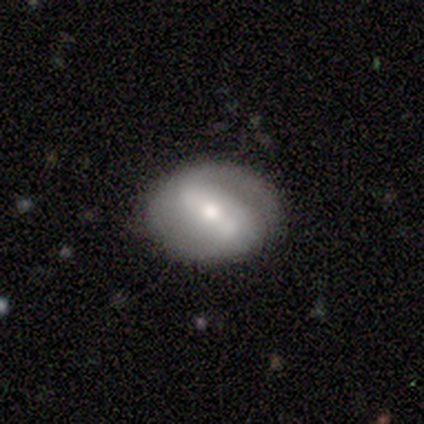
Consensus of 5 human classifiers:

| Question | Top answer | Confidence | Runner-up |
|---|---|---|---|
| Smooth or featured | featured or disk | 100% | — |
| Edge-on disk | no | 100% | — |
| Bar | weak | 60% | strong (40%) |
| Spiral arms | no | 60% | yes (40%) |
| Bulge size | moderate | 60% | small (40%) |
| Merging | none | 80% | minor disturbance (20%) |